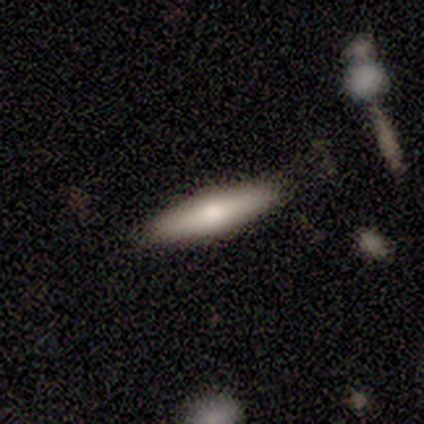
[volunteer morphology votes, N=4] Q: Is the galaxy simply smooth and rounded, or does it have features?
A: smooth — 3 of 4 (75%).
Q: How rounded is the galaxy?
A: cigar-shaped — 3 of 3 (100%).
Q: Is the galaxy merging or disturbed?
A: none — 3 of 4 (75%).